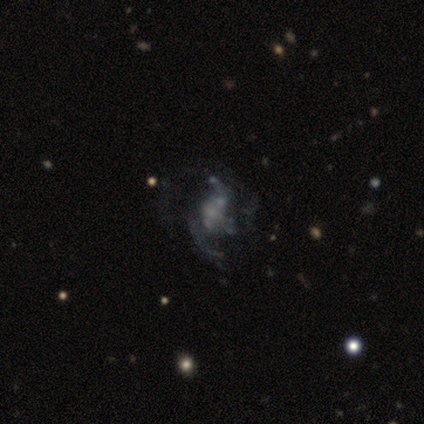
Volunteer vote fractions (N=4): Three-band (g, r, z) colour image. It shows a featured or disk galaxy (75%) with no bar (100%), 3 (50%, tied with can't tell) medium (50%, tied with loose) spiral arms (67%) and no central bulge (67%). Merging: minor disturbance (50%).